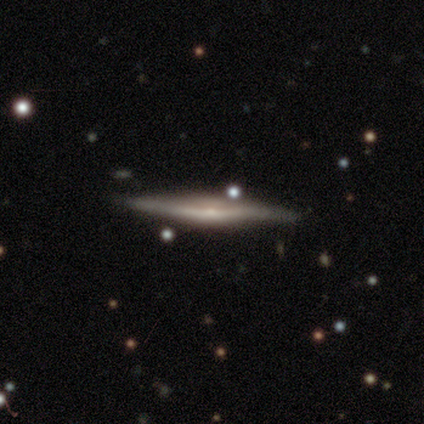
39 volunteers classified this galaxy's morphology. Overall: featured or disk (82%). Edge-on disk: yes (97%). Edge-on bulge: rounded (55%; none 32%). Merging: none (64%).